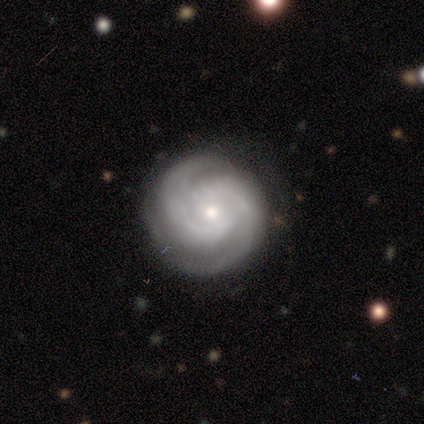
A featured or disk galaxy (80%) with no bar (100%), 2 (100%) tight (75%) spiral arms (100%) and a small central bulge (75%). Merging: none (75%).